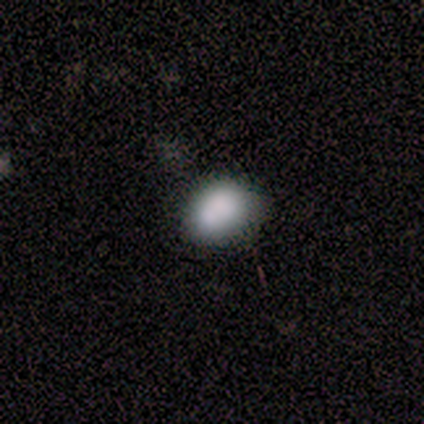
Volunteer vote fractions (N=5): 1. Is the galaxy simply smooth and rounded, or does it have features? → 100% smooth, 0% featured or disk, 0% star or artifact.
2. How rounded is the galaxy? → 80% in between, 20% round, 0% cigar-shaped.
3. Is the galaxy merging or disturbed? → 60% none, 40% minor disturbance, 0% major disturbance, 0% merger.